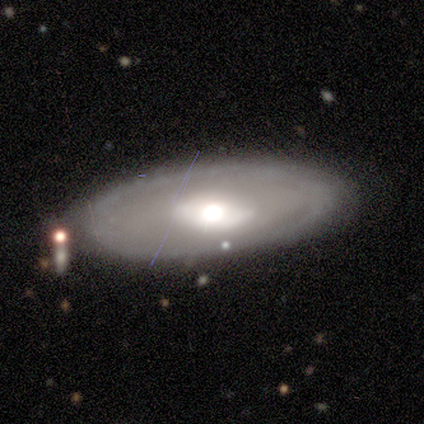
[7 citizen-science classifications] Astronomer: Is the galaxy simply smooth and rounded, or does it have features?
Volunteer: featured or disk — 71%.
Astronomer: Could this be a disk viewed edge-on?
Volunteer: no — 80%.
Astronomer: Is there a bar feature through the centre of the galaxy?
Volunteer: no — 75%.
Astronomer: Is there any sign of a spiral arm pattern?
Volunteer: no — 75%.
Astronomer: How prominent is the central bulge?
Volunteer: large — 50%, tied with moderate at 50%.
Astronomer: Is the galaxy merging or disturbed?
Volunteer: none — 100%.